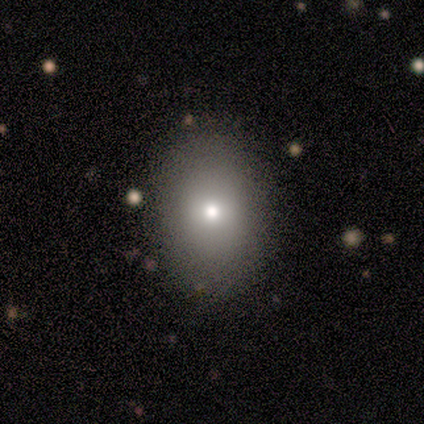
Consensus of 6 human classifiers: A smooth galaxy with no disk features (83%) that is in between round and cigar-shaped (80%). Merging: none (100%).